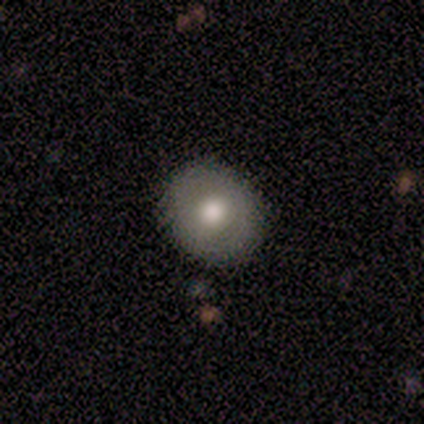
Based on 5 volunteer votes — smooth-or-featured: smooth: 60% | star or artifact: 40% | featured or disk: 0%
  how-rounded: round: 100% | in between: 0% | cigar-shaped: 0%
  merging: none: 100% | minor disturbance: 0% | major disturbance: 0% | merger: 0%